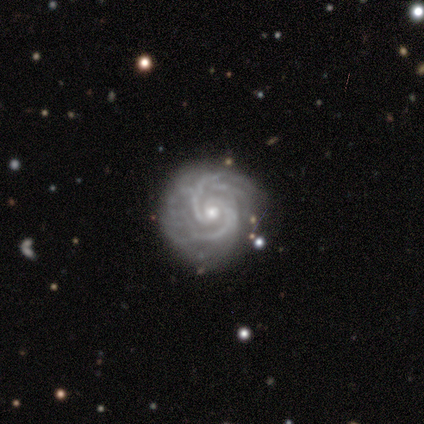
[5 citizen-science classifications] Smooth or featured? 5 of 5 (100%) said featured or disk. Edge-on disk? 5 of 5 (100%) said no. Bar? 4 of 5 (80%) said no. Spiral arms? 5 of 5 (100%) said yes. Spiral winding? 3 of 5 (60%) said tight. Spiral arm count? 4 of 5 (80%) said 2. Bulge size? 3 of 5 (60%) said moderate. Merging? 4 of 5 (80%) said none.